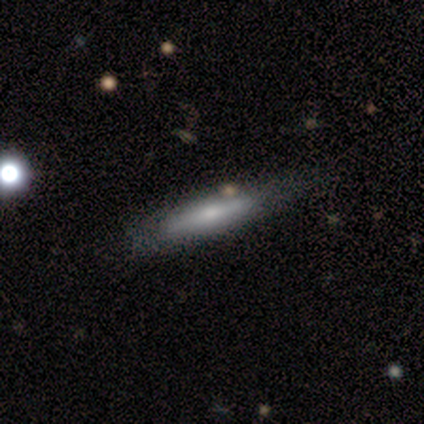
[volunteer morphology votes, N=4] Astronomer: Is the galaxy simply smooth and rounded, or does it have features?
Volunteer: smooth — 50%, tied with featured or disk at 50%.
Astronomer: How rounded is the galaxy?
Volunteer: cigar-shaped — 100%.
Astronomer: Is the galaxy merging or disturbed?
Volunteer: minor disturbance — 75%.